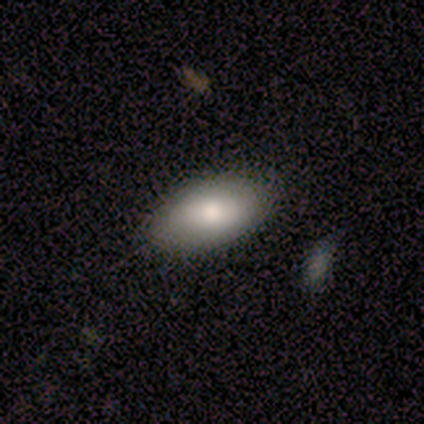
This is likely a smooth galaxy (75%). How rounded: clearly in between (100%). Merging: clearly none (100%).